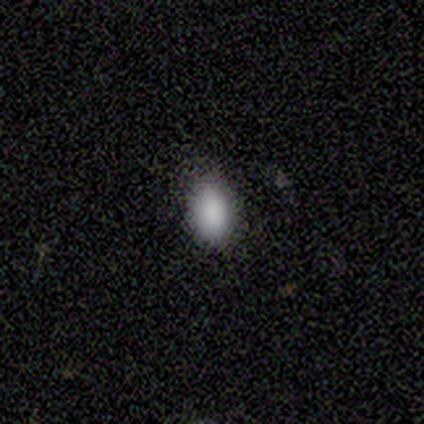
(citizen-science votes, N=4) smooth_or_featured: smooth (p=0.75) [alt: star or artifact p=0.25]
how_rounded: round (p=0.67) [alt: in between p=0.33]
merging: minor disturbance (p=0.67) [alt: none p=0.33]